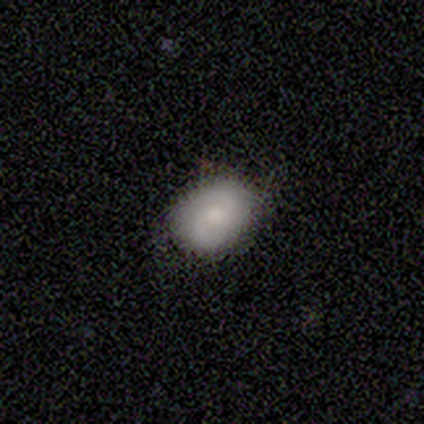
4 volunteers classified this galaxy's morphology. smooth-or-featured: smooth: 75% | featured or disk: 25% | star or artifact: 0%
  how-rounded: in between: 67% | round: 33% | cigar-shaped: 0%
  merging: none: 100% | minor disturbance: 0% | major disturbance: 0% | merger: 0%